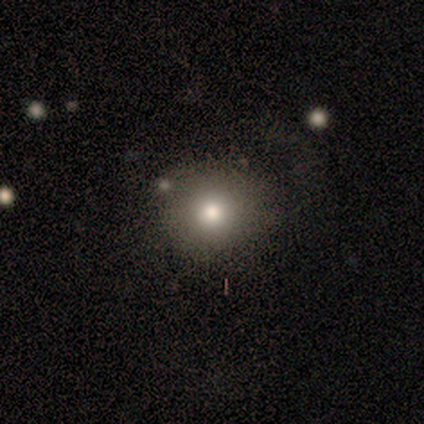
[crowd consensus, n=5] This is marginally a smooth galaxy (40%, tied with featured or disk). How rounded: possibly round (50%, tied with in between). Merging: likely none (75%).